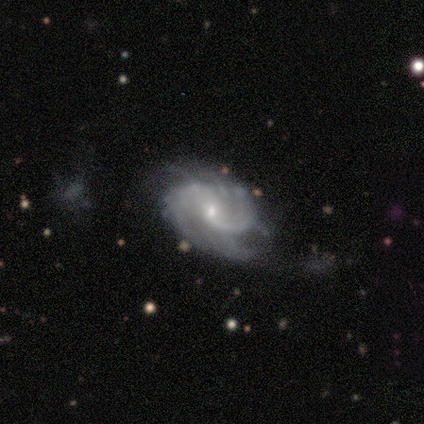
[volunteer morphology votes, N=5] featured or disk 100%, smooth 0%, star or artifact 0%. Down the decision tree: edge-on disk — no (100%); bar — weak (80%); spiral arms — yes (100%); spiral arm count — 2 (60%); spiral winding — medium (100%); bulge size — small (100%); merging — none (60%).